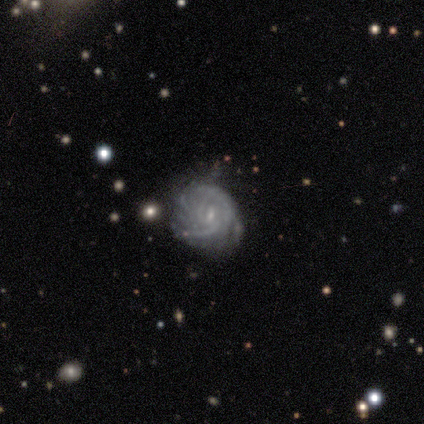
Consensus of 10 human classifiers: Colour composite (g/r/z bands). It shows a featured or disk galaxy (70%) with no bar (57%), 3 (43%) tight (86%) spiral arms (100%) and a small central bulge (86%). Merging: none (78%).